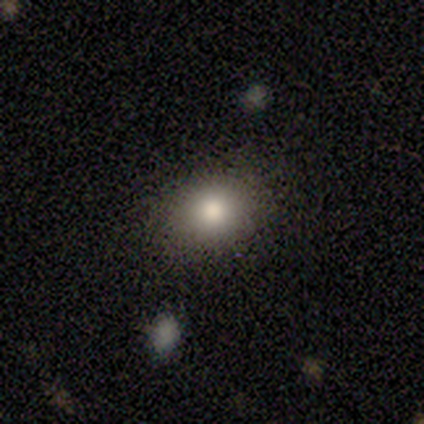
Smooth or featured? smooth (100%)
How rounded? in between (60%)
Merging? none (100%)